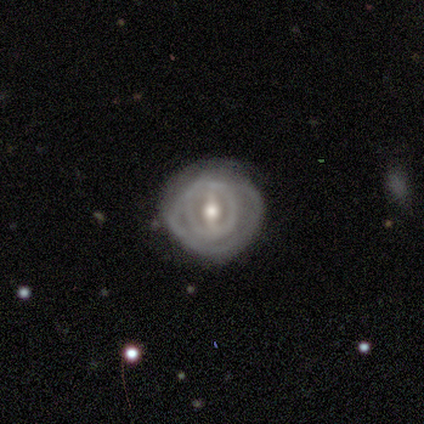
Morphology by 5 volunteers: smooth_or_featured: smooth (p=0.60) [alt: featured or disk p=0.40]
how_rounded: round (p=1.00)
merging: none (p=0.80) [alt: major disturbance p=0.20]